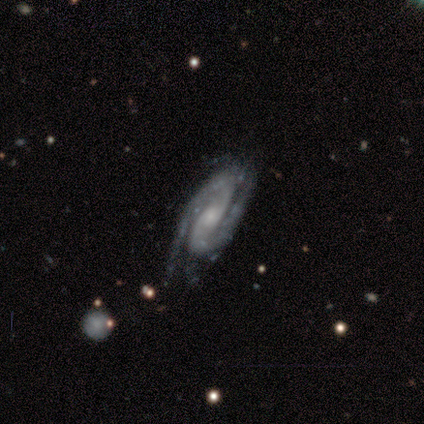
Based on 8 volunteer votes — Smooth or featured? 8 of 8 (100%) said featured or disk. Edge-on disk? 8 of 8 (100%) said no. Bar? 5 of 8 (62%) said no. Spiral arms? 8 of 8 (100%) said yes. Spiral winding? 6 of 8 (75%) said tight. Spiral arm count? 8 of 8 (100%) said 2. Bulge size? 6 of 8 (75%) said small. Merging? 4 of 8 (50%, tied with minor disturbance) said none.